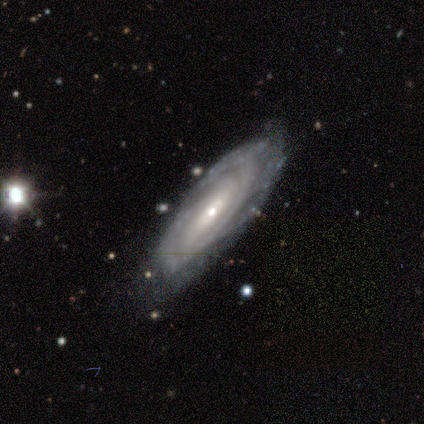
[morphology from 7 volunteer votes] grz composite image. It shows a featured or disk galaxy (100%) with no bar (50%), tight (67%) spiral arms (100%) and a small central bulge (100%). Merging: none (86%).